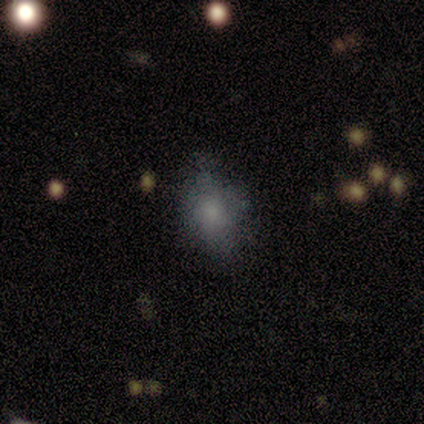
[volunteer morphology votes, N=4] A smooth galaxy with no disk features (100%) that is in between round and cigar-shaped (75%). Merging: none (100%).